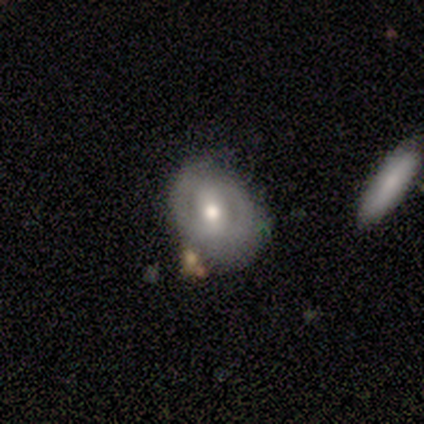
A smooth galaxy with no disk features (50%, tied with featured or disk) that is in between round and cigar-shaped (75%).

Vote fractions:
- Smooth or featured? smooth: 50% (tied) / featured or disk: 50% (tied) / star or artifact: 0%
- How rounded? in between: 75% / round: 25% / cigar-shaped: 0%
- Merging? none: 38% / major disturbance: 25% / merger: 25% / minor disturbance: 12%